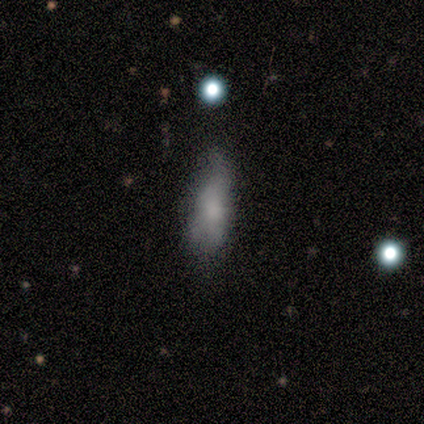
smooth-or-featured: smooth: 56% | featured or disk: 33% | star or artifact: 11%
  how-rounded: in between: 100% | round: 0% | cigar-shaped: 0%
  merging: none: 62% | minor disturbance: 38% | major disturbance: 0% | merger: 0%